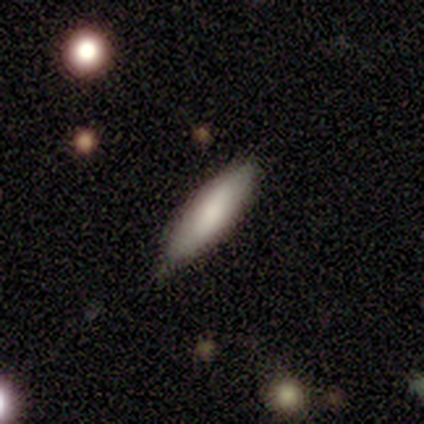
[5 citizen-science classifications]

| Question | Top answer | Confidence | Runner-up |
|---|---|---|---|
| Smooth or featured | smooth | 60% | featured or disk (40%) |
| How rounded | cigar-shaped | 67% | in between (33%) |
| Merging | none | 60% | minor disturbance (40%) |